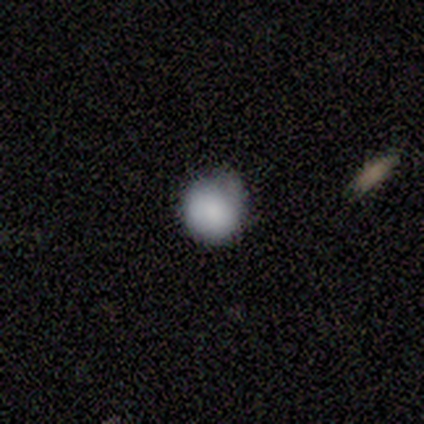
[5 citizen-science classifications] A smooth galaxy with no disk features (100%) that is round (80%).

Vote fractions:
- Smooth or featured? smooth: 100% / featured or disk: 0% / star or artifact: 0%
- How rounded? round: 80% / in between: 20% / cigar-shaped: 0%
- Merging? minor disturbance: 60% / none: 40% / major disturbance: 0% / merger: 0%